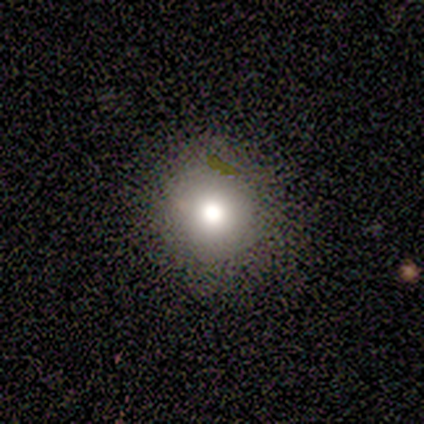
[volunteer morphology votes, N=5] smooth_or_featured: smooth (p=0.80) [alt: featured or disk p=0.20]
how_rounded: round (p=1.00)
merging: none (p=1.00)